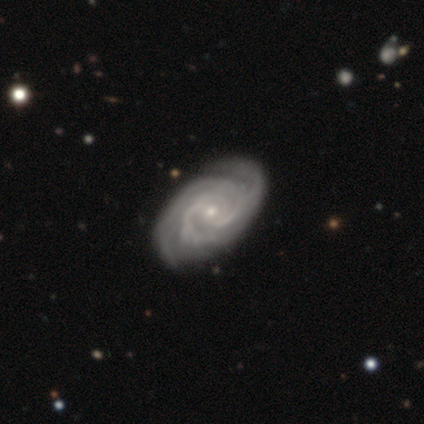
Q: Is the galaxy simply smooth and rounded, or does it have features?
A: featured or disk — 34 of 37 (92%).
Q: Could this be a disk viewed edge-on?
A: no — 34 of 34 (100%).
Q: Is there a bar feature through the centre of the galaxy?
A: no — 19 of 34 (56%).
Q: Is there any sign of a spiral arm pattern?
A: yes — 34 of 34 (100%).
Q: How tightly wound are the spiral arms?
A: tight — 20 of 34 (59%).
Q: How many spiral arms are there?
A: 3 — 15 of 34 (44%).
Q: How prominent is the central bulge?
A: small — 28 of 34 (82%).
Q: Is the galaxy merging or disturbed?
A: none — 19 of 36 (53%).